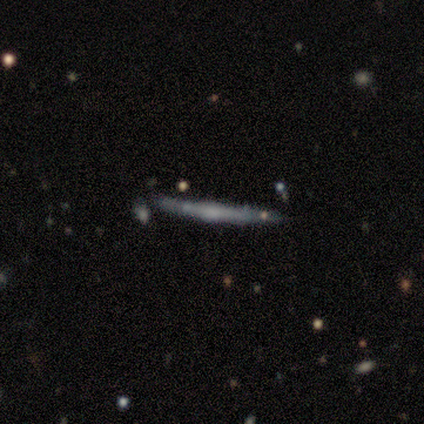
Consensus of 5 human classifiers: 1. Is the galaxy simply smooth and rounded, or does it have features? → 80% featured or disk, 20% smooth, 0% star or artifact.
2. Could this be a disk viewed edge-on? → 100% yes, 0% no.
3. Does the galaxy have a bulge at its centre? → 75% rounded, 25% none, 0% boxy.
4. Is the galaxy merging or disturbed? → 60% none, 20% minor disturbance, 20% major disturbance, 0% merger.